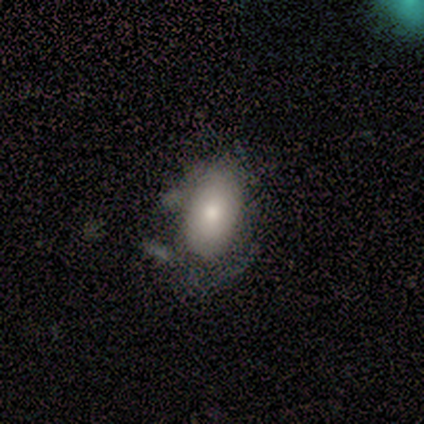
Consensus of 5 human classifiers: A smooth galaxy with no disk features (60%) that is in between round and cigar-shaped (100%). Merging: none (40%, tied with major disturbance).